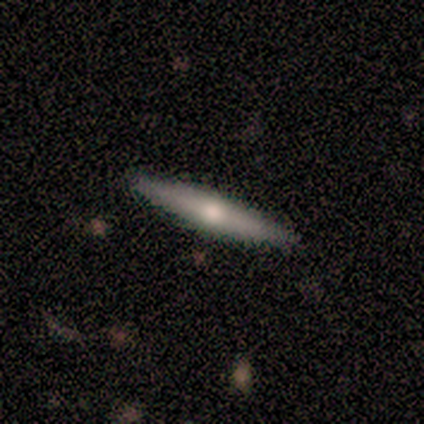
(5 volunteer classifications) This appears to be a smooth galaxy with no disk features (60%) that is cigar-shaped (100%). Merging: none (100%).